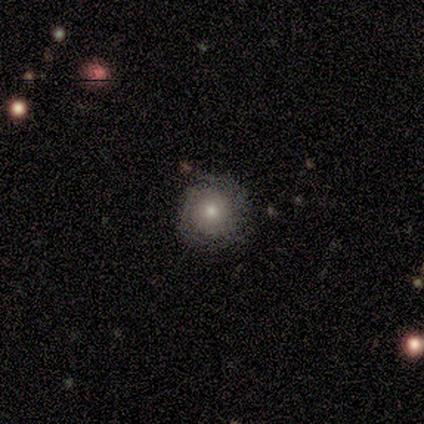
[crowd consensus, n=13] Smooth or featured: smooth — 54% (featured or disk — 46%)
How rounded: round — 100%
Merging: none — 69% (minor disturbance — 15%)